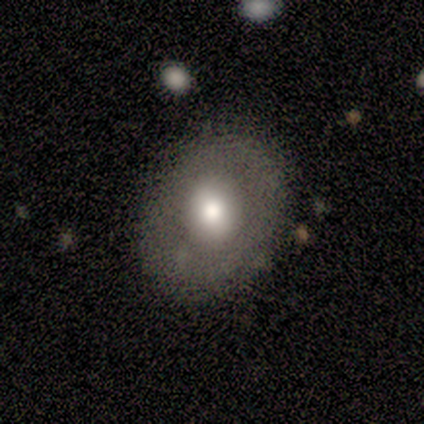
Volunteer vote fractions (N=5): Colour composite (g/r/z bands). It shows a smooth galaxy with no disk features (60%) that is in between round and cigar-shaped (67%). Merging: none (100%).